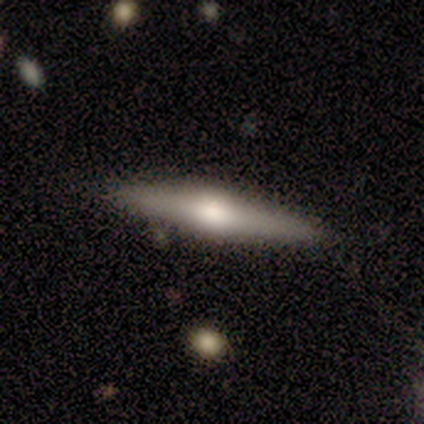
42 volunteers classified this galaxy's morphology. A featured or disk galaxy (55%) viewed edge-on (96%) with a rounded central bulge (95%).

Vote fractions:
- Smooth or featured? featured or disk: 55% / smooth: 31% / star or artifact: 14%
- Edge-on disk? yes: 96% / no: 4%
- Edge-on bulge? rounded: 95% / boxy: 5% / none: 0%
- Merging? none: 92% / minor disturbance: 8% / major disturbance: 0% / merger: 0%